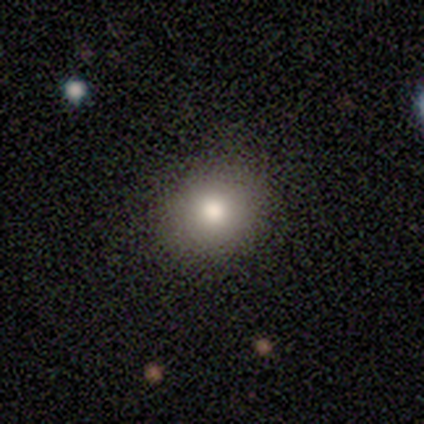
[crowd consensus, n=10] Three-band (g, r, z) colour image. It shows a smooth galaxy with no disk features (90%) that is round (89%). Merging: none (90%).